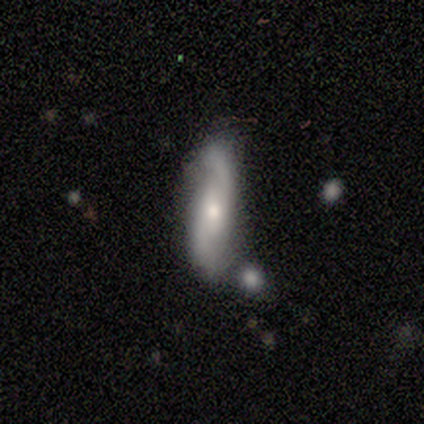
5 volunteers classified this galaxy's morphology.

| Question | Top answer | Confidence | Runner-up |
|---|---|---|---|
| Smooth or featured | featured or disk | 80% | smooth (20%) |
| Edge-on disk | no | 100% | — |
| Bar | weak | 50% | tied: no (50%) |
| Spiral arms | yes | 100% | — |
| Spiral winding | loose | 75% | medium (25%) |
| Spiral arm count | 2 | 100% | — |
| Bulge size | moderate | 50% | tied: small (50%) |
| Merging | none | 40% | tied: merger (40%) |